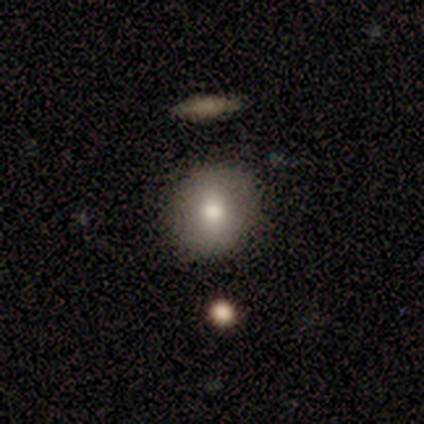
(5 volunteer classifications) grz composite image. It shows a smooth galaxy with no disk features (40%, tied with featured or disk) that is round (100%). Merging: none (75%).